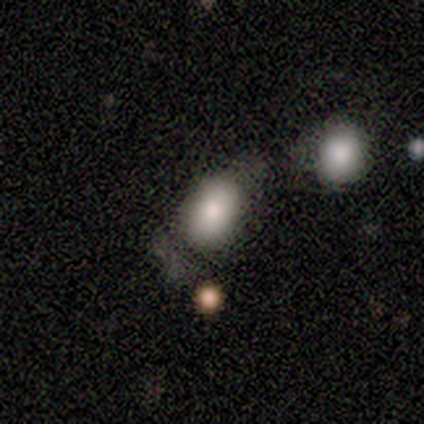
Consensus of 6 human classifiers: Q: Smooth or featured?
A: smooth (83%); runner-up: star or artifact (17%)
Q: How rounded?
A: in between (80%); runner-up: round (20%)
Q: Merging?
A: merger (40%); runner-up: none (20%)